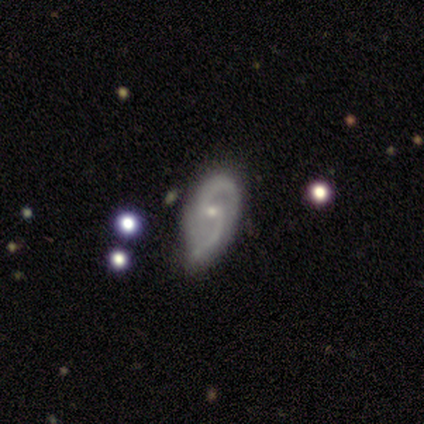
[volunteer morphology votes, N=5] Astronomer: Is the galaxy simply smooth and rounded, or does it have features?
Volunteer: featured or disk — 100%.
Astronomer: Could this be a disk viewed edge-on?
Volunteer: no — 100%.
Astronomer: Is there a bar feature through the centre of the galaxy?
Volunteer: no — 60%.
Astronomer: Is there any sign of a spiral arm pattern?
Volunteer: yes — 100%.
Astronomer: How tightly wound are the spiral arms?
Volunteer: loose — 60% (runner-up: medium, 40%).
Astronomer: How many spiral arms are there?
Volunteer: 2 — 100%.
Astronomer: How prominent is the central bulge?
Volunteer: moderate — 60% (runner-up: small, 40%).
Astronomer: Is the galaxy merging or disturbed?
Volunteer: none — 60% (runner-up: minor disturbance, 40%).